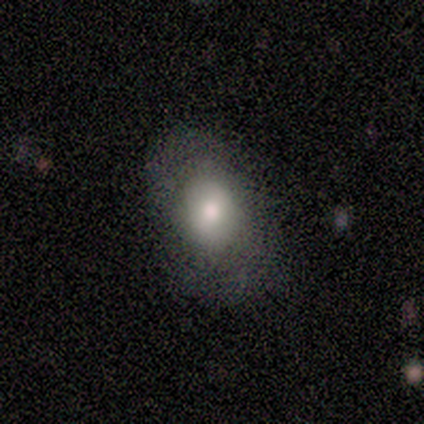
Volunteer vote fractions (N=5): Smooth or featured? smooth (80%)
How rounded? in between (100%)
Merging? none (50%)